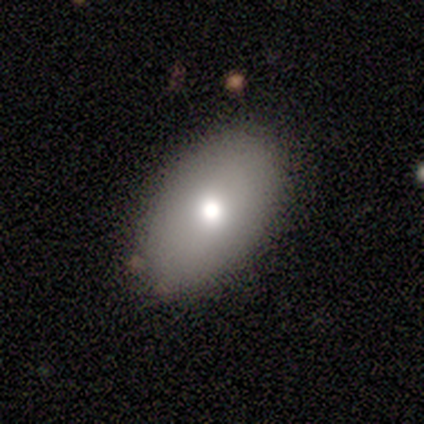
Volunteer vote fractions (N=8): Volunteers were most divided on "merging": none: 75%, minor disturbance: 25%, major disturbance: 0%, merger: 0%. More confident: smooth or featured — smooth (88%); how rounded — in between (86%).